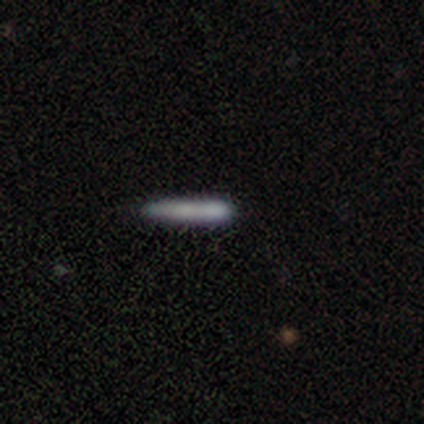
smooth-or-featured: smooth: 100% | featured or disk: 0% | star or artifact: 0%
  how-rounded: cigar-shaped: 80% | in between: 20% | round: 0%
  merging: none: 60% | minor disturbance: 20% | merger: 20% | major disturbance: 0%